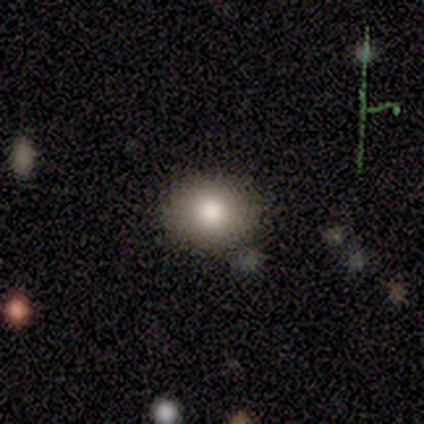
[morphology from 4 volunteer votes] Volunteers were most divided on "merging" (2-way tie): none: 50%, minor disturbance: 50%, major disturbance: 0%, merger: 0%. More confident: smooth or featured — smooth (75%); how rounded — in between (67%).